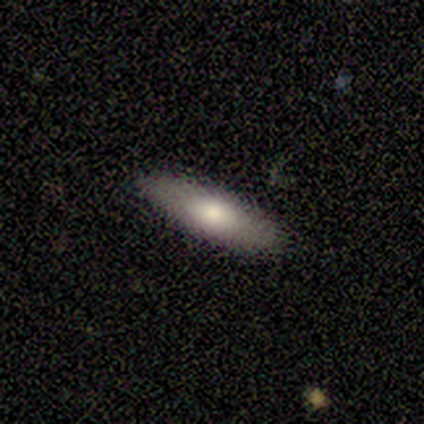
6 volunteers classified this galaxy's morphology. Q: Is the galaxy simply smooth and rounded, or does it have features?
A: smooth — 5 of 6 (83%).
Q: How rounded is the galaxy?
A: cigar-shaped — 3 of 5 (60%).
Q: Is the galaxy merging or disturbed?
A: none — 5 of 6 (83%).